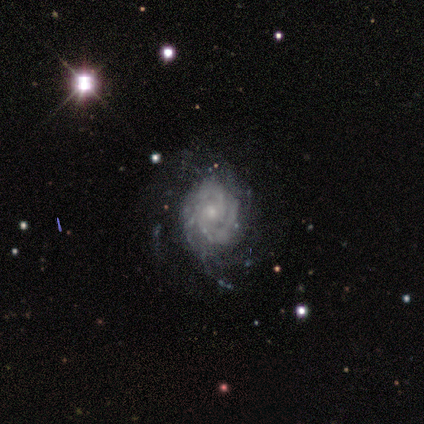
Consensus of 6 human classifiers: A featured or disk galaxy (83%) with no bar (60%), 2 (40%, tied with can't tell) tight (80%) spiral arms (100%) and a small central bulge (80%).

Vote fractions:
- Smooth or featured? featured or disk: 83% / smooth: 17% / star or artifact: 0%
- Edge-on disk? no: 100% / yes: 0%
- Bar? no: 60% / weak: 40% / strong: 0%
- Spiral arms? yes: 100% / no: 0%
- Spiral winding? tight: 80% / medium: 20% / loose: 0%
- Spiral arm count? 2: 40% (tied) / can't tell: 40% (tied) / 3: 20% / 1: 0% / 4: 0% / more than 4: 0%
- Bulge size? small: 80% / moderate: 20% / dominant: 0% / large: 0% / none: 0%
- Merging? none: 33% (tied) / minor disturbance: 33% (tied) / major disturbance: 33% (tied) / merger: 0%